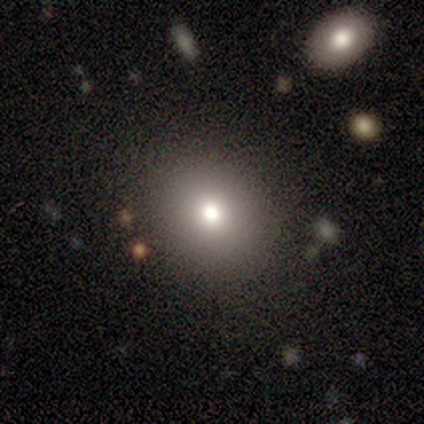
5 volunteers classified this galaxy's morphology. This is likely a smooth galaxy (60%). How rounded: likely round (67%). Merging: clearly none (100%).